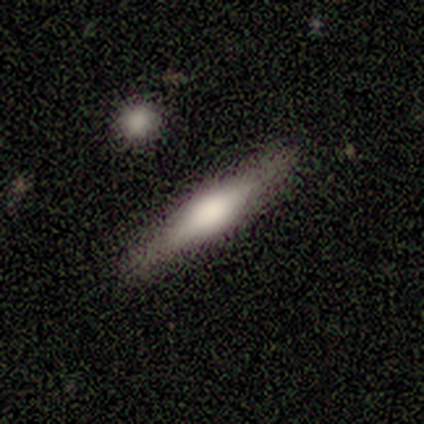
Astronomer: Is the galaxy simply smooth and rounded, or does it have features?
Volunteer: featured or disk — 60%.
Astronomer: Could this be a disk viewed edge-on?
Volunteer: yes — 100%.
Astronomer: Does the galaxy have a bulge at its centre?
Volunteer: rounded — 67%.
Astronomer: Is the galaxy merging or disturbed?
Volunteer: none — 75%.